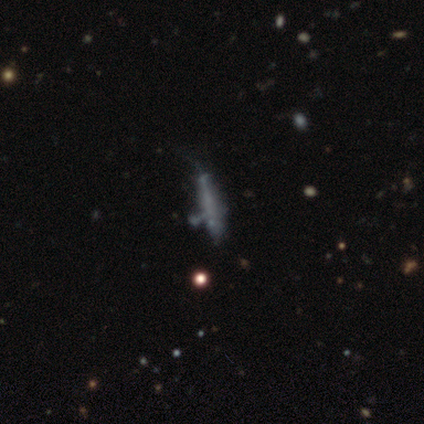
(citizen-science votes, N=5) Q: Smooth or featured?
A: smooth (40%); tied with: star or artifact (40%)
Q: How rounded?
A: cigar-shaped (100%)
Q: Merging?
A: none (67%); runner-up: minor disturbance (33%)